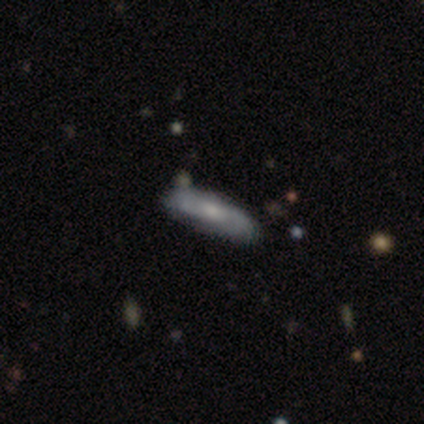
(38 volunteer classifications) This is possibly a featured or disk galaxy (47%). It is clearly not viewed edge-on (83%). Bar: likely no (60%). Spiral arm pattern: clearly yes (100%). Spiral arm count: likely 2 (67%). Spiral winding: possibly medium (47%). Central bulge: possibly small (47%). Merging: likely none (71%).